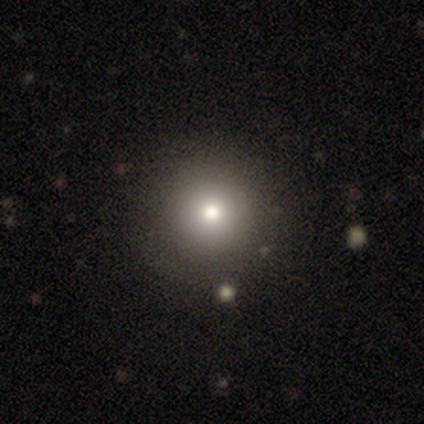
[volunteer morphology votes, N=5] type=smooth (60%); roundness=round (100%); merging=none (100%).